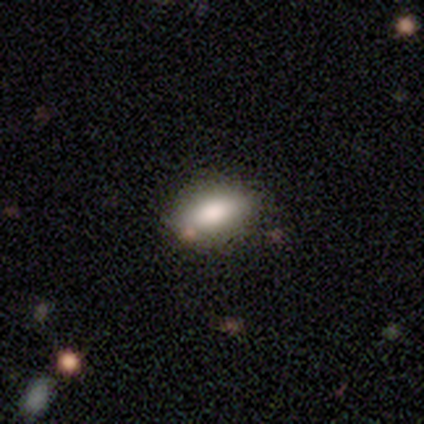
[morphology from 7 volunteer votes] Volunteers were most divided on "merging": none: 67%, minor disturbance: 33%, major disturbance: 0%, merger: 0%. More confident: how rounded — in between (100%); smooth or featured — smooth (71%).